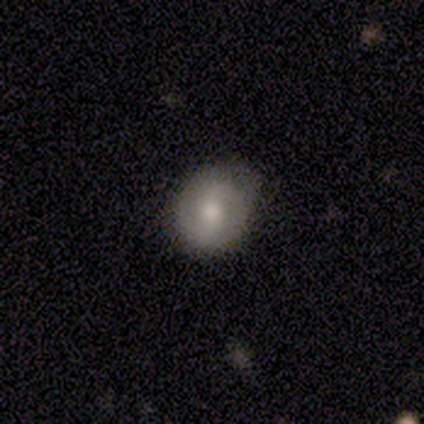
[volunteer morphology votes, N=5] Smooth or featured? smooth (60%)
How rounded? round (67%)
Merging? none (100%)